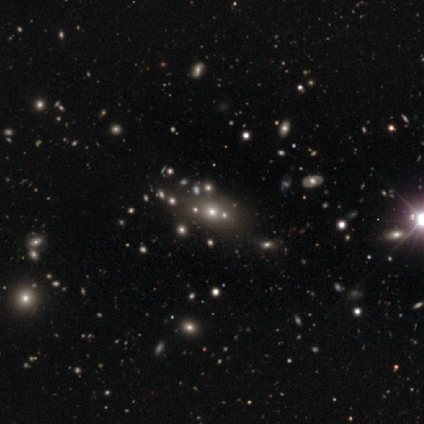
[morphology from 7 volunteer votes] A star or artifact, not a galaxy (86%).

Vote fractions:
- Smooth or featured? star or artifact: 86% / featured or disk: 14% / smooth: 0%